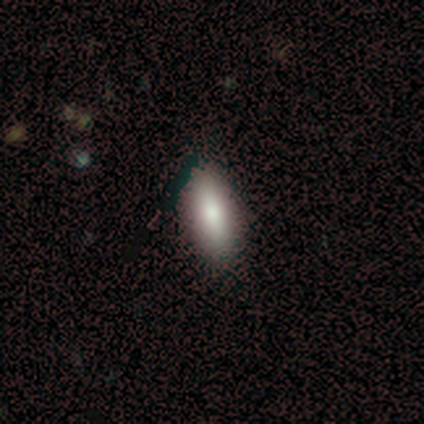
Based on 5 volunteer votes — Smooth or featured: smooth — 100%
How rounded: cigar-shaped — 60% (in between — 40%)
Merging: none — 100%